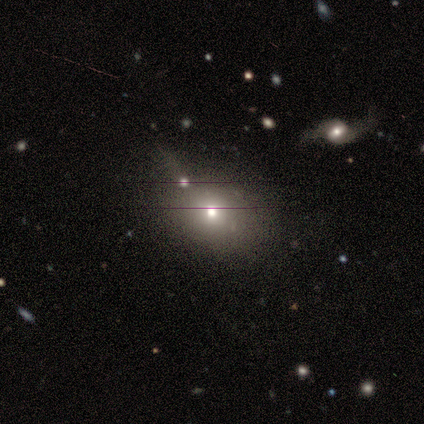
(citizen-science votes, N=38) A smooth galaxy with no disk features (71%) that is round (59%).

Vote fractions:
- Smooth or featured? smooth: 71% / featured or disk: 16% / star or artifact: 13%
- How rounded? round: 59% / in between: 41% / cigar-shaped: 0%
- Merging? merger: 36% / none: 30% / minor disturbance: 21% / major disturbance: 12%